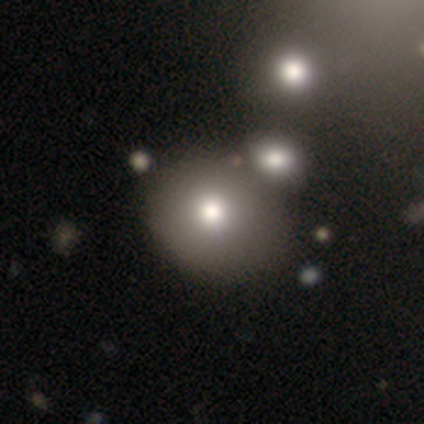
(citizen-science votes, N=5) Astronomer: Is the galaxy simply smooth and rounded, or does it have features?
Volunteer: smooth — 100%.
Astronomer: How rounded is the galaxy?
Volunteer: round — 80%.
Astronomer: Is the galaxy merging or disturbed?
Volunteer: none — 40%, tied with merger at 40%.